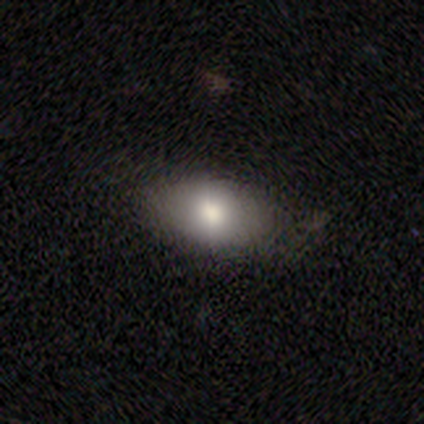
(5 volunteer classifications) smooth 100%, featured or disk 0%, star or artifact 0%. Down the decision tree: how rounded — in between (100%); merging — none (40%, tied with minor disturbance).